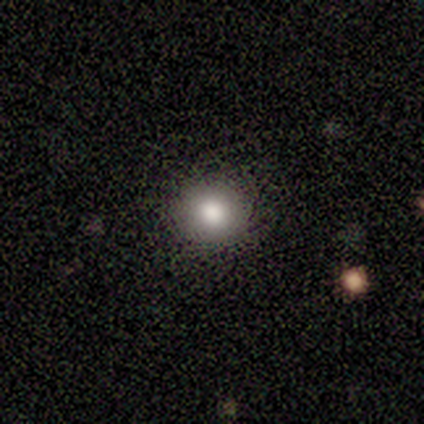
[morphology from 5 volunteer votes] smooth-or-featured: smooth: 100% | featured or disk: 0% | star or artifact: 0%
  how-rounded: round: 80% | in between: 20% | cigar-shaped: 0%
  merging: none: 100% | minor disturbance: 0% | major disturbance: 0% | merger: 0%